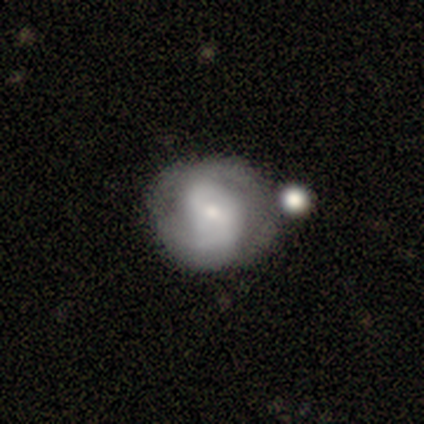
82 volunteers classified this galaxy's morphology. Smooth or featured: featured or disk — 67% (smooth — 28%)
Edge-on disk: no — 95% (yes — 5%)
Bar: no — 48% (weak — 46%)
Spiral arms: yes — 81% (no — 19%)
Spiral winding: medium — 43% (tight — 33%)
Spiral arm count: 2 — 62% (can't tell — 31%)
Bulge size: small — 77% (moderate — 15%)
Merging: none — 54% (minor disturbance — 26%)